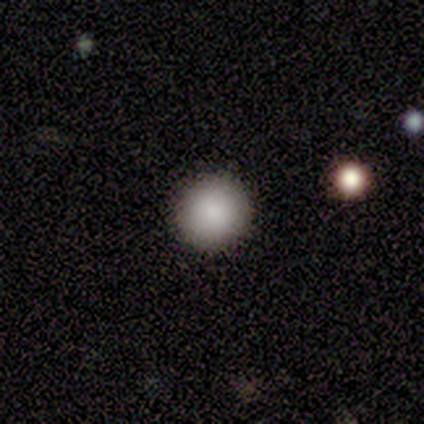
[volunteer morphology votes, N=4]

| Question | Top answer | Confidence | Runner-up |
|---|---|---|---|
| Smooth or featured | smooth | 100% | — |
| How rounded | round | 100% | — |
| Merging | none | 100% | — |